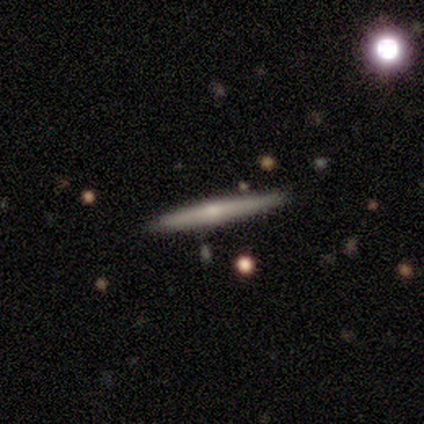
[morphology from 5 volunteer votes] This appears to be a featured or disk galaxy (80%) viewed edge-on (100%) with a rounded central bulge (75%). Merging: none (80%).